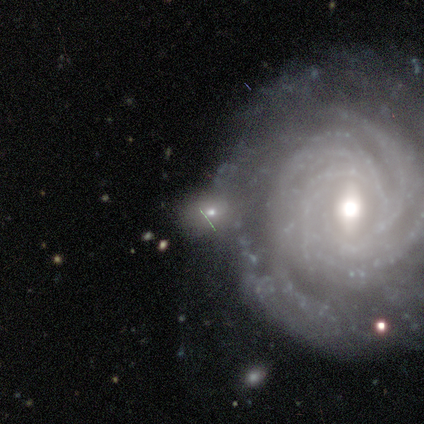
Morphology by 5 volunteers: type=featured or disk (60%); edge-on=no (100%); bar=no (67%); spiral arms=yes (100%); winding=tight (67%); arm count=more than 4 (67%); bulge=moderate (100%); merging=none (40%).